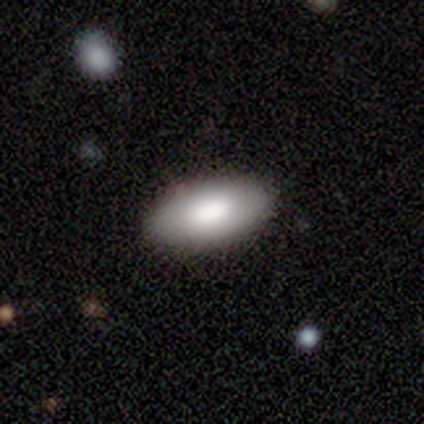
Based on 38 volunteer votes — This appears to be a smooth galaxy with no disk features (84%) that is in between round and cigar-shaped (91%). Merging: none (89%).